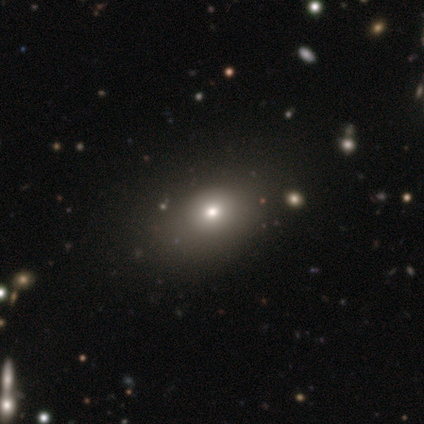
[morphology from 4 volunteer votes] Overall: smooth (75%). How rounded: round (67%; in between 33%). Merging: none (100%).